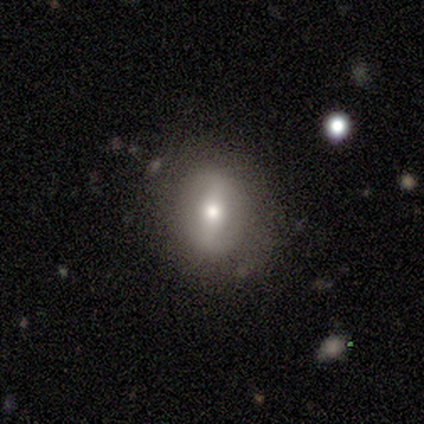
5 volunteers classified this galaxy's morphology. Overall: smooth (80%). How rounded: round (100%). Merging: none (75%).